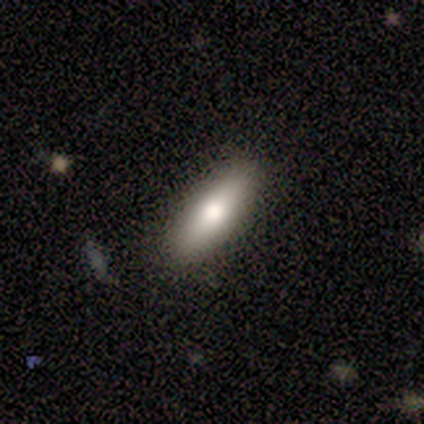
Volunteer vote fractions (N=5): smooth 80%, featured or disk 20%, star or artifact 0%. Down the decision tree: how rounded — in between (50%, tied with cigar-shaped); merging — none (100%).